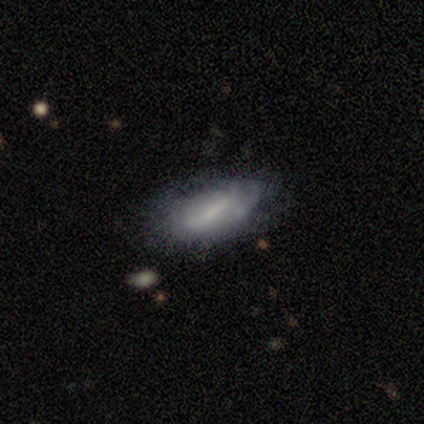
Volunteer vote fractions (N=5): smooth_or_featured: smooth (p=0.60) [alt: featured or disk p=0.40]
how_rounded: in between (p=0.67) [alt: cigar-shaped p=0.33]
merging: none (p=0.60) [alt: minor disturbance p=0.40]